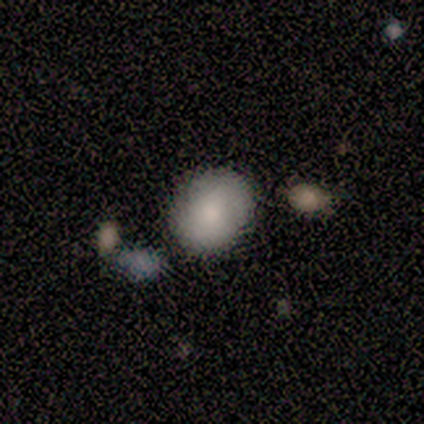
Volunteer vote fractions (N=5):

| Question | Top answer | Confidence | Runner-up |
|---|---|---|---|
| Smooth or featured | smooth | 80% | star or artifact (20%) |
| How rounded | round | 75% | in between (25%) |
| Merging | none | 75% | minor disturbance (25%) |